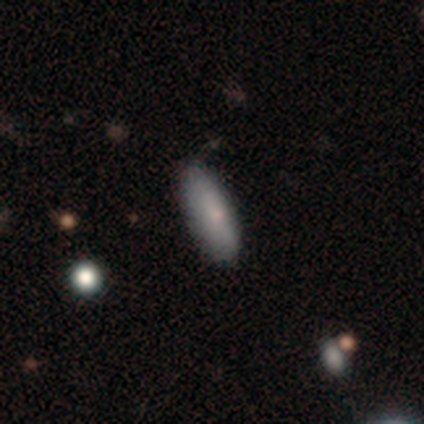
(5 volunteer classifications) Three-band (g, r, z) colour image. It shows a smooth galaxy with no disk features (100%) that is in between round and cigar-shaped (80%). Merging: none (100%).